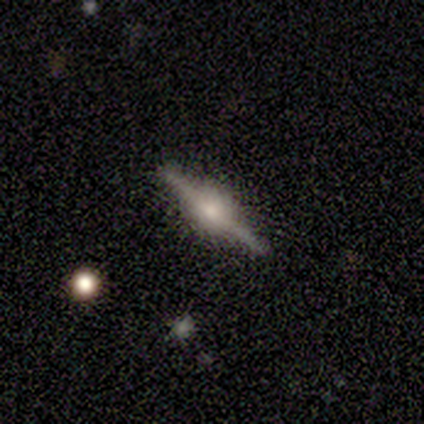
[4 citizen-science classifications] featured or disk 100%, smooth 0%, star or artifact 0%. Down the decision tree: edge-on disk — yes (100%); edge-on bulge — rounded (100%); merging — none (100%).